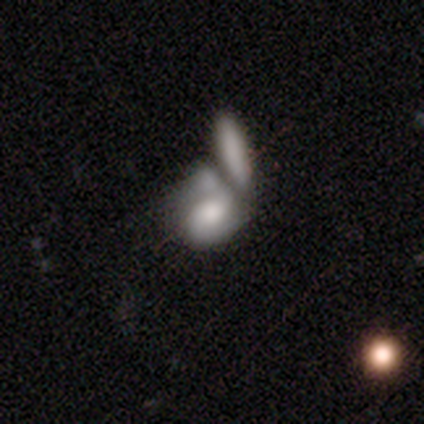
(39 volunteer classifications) This appears to be a featured or disk galaxy (54%) with no bar (86%), no spiral arms (67%) and a moderate central bulge (38%). Merging: merger (73%).